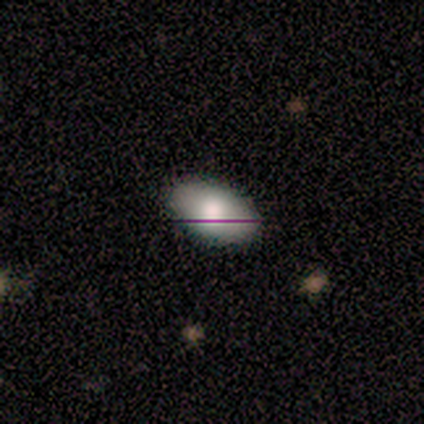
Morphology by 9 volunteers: A smooth galaxy with no disk features (67%) that is in between round and cigar-shaped (100%). Merging: none (100%).